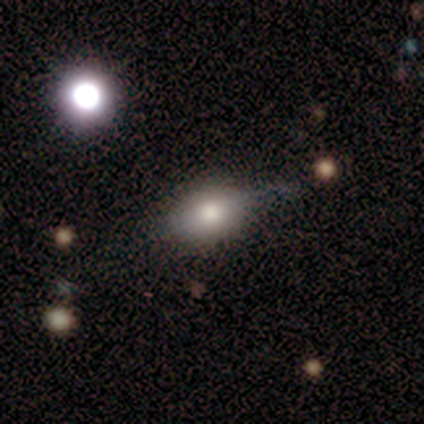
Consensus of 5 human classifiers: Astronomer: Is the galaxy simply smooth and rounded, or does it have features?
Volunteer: smooth — 80%.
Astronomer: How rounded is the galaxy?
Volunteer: round — 50%, tied with in between at 50%.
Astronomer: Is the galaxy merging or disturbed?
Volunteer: none — 60% (runner-up: major disturbance, 40%).